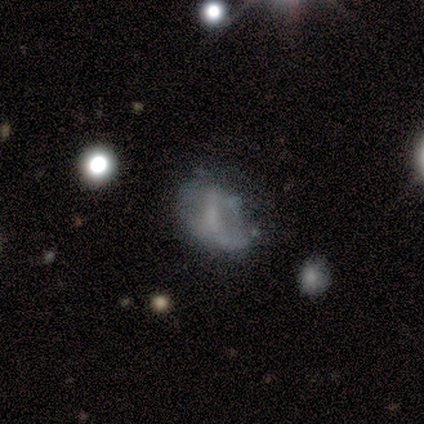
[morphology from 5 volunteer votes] smooth-or-featured: featured or disk: 60% | smooth: 40% | star or artifact: 0%
  disk-edge-on: no: 100% | yes: 0%
    bar: strong: 100% | weak: 0% | no: 0%
    has-spiral-arms: yes: 100% | no: 0%
      spiral-winding: medium: 67% | loose: 33% | tight: 0%
      spiral-arm-count: 2: 67% | can't tell: 33% | 1: 0% | 3: 0% | 4: 0% | more than 4: 0%
    bulge-size: none: 67% | moderate: 33% | dominant: 0% | large: 0% | small: 0%
  merging: minor disturbance: 40% (tied) | major disturbance: 40% (tied) | none: 20% | merger: 0%